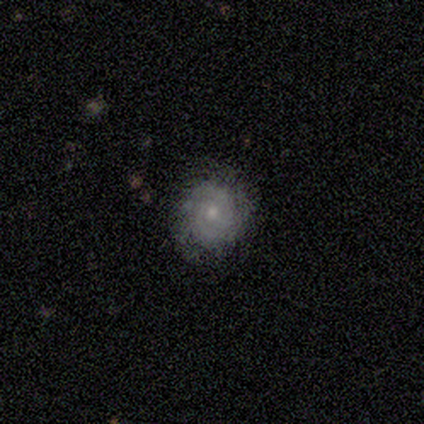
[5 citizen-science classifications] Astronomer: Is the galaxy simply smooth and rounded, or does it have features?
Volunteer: smooth — 60% (runner-up: featured or disk, 40%).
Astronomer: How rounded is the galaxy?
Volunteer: round — 100%.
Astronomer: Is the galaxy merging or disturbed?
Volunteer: none — 100%.